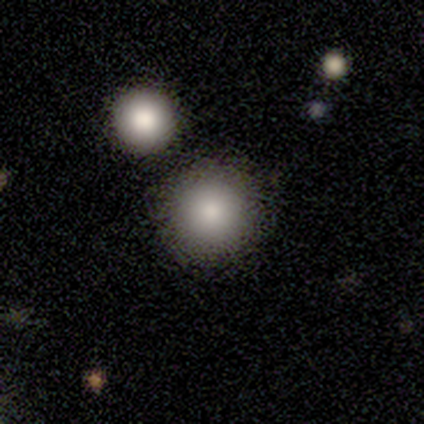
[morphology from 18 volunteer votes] smooth 100%, featured or disk 0%, star or artifact 0%. Down the decision tree: how rounded — round (100%); merging — none (100%).